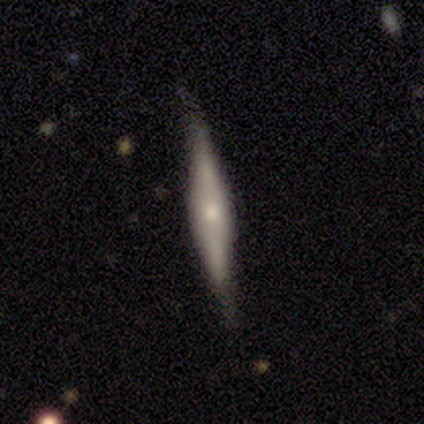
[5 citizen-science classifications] Smooth or featured: featured or disk — 80% (smooth — 20%)
Edge-on disk: yes — 100%
Edge-on bulge: rounded — 75% (none — 25%)
Merging: none — 80% (minor disturbance — 20%)